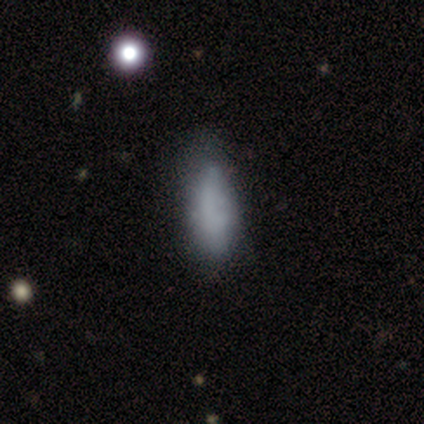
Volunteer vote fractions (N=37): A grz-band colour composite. It shows a smooth galaxy with no disk features (73%) that is in between round and cigar-shaped (70%). Merging: none (56%).